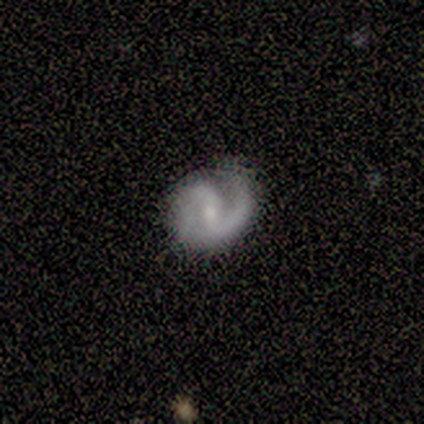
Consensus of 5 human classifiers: This is clearly a featured or disk galaxy (100%). It is clearly not viewed edge-on (100%). Bar: marginally strong (40%, tied with weak). Spiral arm pattern: clearly yes (100%). Spiral arm count: clearly 2 (80%). Spiral winding: marginally medium (40%, tied with loose). Central bulge: likely small (60%). Merging: clearly none (80%).